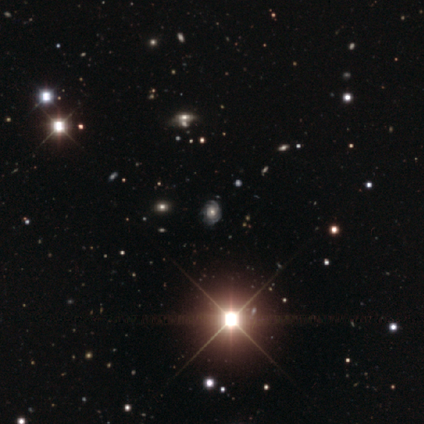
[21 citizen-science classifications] Overall: featured or disk (43%; star or artifact 38%). Edge-on disk: no (100%). Bar: no (89%). Spiral arms: yes (67%; no 33%). Spiral arm count: can't tell (67%). Spiral winding: tight (83%). Bulge size: large (56%; moderate 44%). Merging: none (62%; major disturbance 23%).